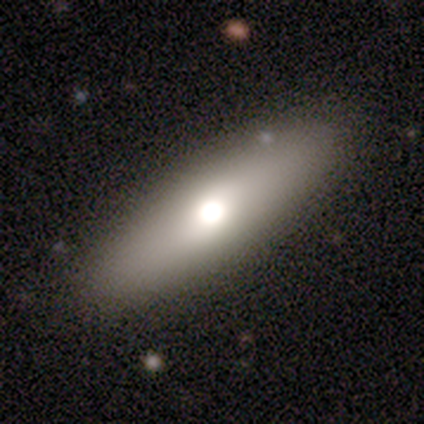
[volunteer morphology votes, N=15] This appears to be a smooth galaxy with no disk features (80%) that is cigar-shaped (50%). Merging: none (92%).